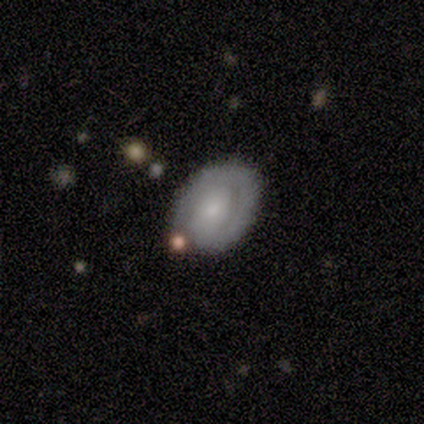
Volunteers were most divided on "smooth or featured": featured or disk: 67%, smooth: 33%, star or artifact: 0%. More confident: edge-on disk — no (100%); bar — no (100%); spiral winding — tight (100%); spiral arm count — 1 (100%); merging — none (83%); spiral arms — yes (75%); bulge size — small (75%).